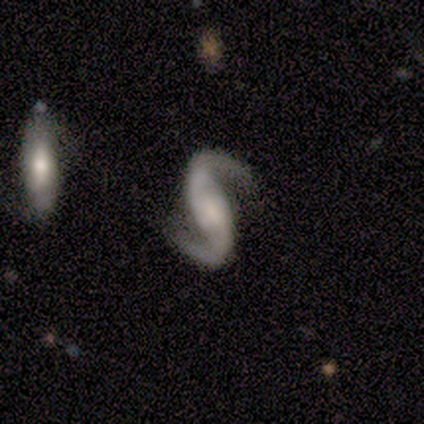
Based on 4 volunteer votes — A featured or disk galaxy (100%) with no bar (50%), 2 (100%) loose (75%) spiral arms (100%) and a small central bulge (50%).

Vote fractions:
- Smooth or featured? featured or disk: 100% / smooth: 0% / star or artifact: 0%
- Edge-on disk? no: 100% / yes: 0%
- Bar? no: 50% / strong: 25% / weak: 25%
- Spiral arms? yes: 100% / no: 0%
- Spiral winding? loose: 75% / medium: 25% / tight: 0%
- Spiral arm count? 2: 100% / 1: 0% / 3: 0% / 4: 0% / more than 4: 0% / can't tell: 0%
- Bulge size? small: 50% / moderate: 25% / none: 25% / dominant: 0% / large: 0%
- Merging? none: 50% / minor disturbance: 25% / major disturbance: 25% / merger: 0%